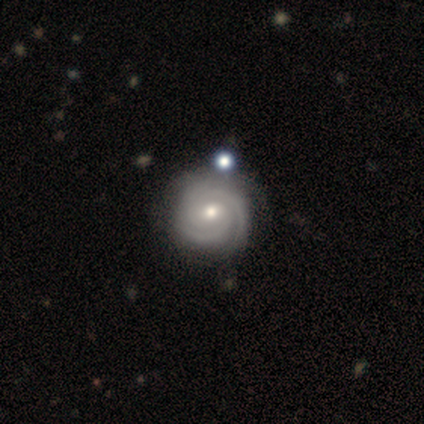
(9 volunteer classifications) Morphology: type=featured or disk (78%); edge-on=no (100%); bar=no (57%); spiral arms=yes (100%); winding=tight (86%); arm count=3 (43%); bulge=small (71%); merging=none (62%).